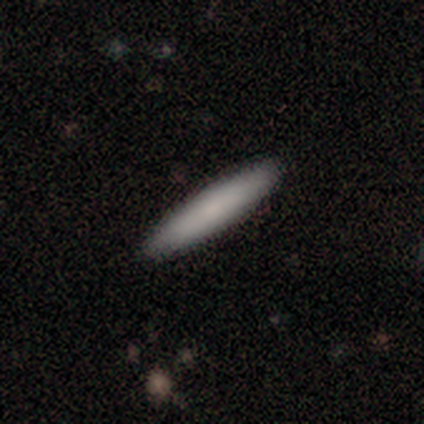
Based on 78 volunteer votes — smooth_or_featured: smooth (p=0.85) [alt: featured or disk p=0.14]
how_rounded: cigar-shaped (p=0.79) [alt: in between p=0.21]
merging: none (p=0.57) [alt: minor disturbance p=0.04]